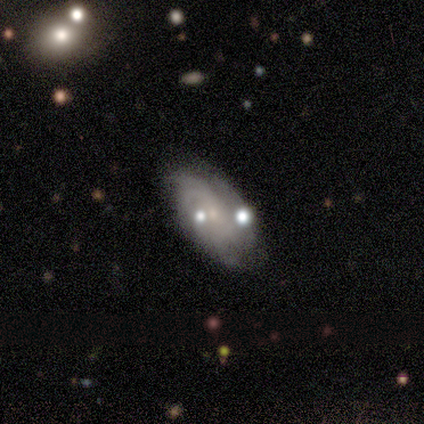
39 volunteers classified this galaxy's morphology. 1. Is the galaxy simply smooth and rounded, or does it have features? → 69% featured or disk, 26% smooth, 5% star or artifact.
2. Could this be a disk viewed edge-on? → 100% no, 0% yes.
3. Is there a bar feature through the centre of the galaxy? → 78% no, 22% weak, 0% strong.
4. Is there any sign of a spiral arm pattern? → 89% yes, 11% no.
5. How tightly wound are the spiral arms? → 67% tight, 25% medium, 8% loose.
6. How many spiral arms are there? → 42% can't tell, 25% 2, 17% 3, 17% 4, 0% 1, 0% more than 4.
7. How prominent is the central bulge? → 89% small, 7% none, 4% moderate, 0% dominant, 0% large.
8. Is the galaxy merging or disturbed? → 59% none, 16% minor disturbance, 16% merger, 8% major disturbance.